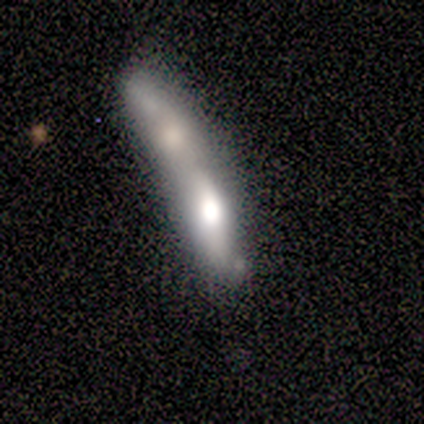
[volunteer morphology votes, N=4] Q: Smooth or featured?
A: smooth (75%); runner-up: featured or disk (25%)
Q: How rounded?
A: in between (67%); runner-up: cigar-shaped (33%)
Q: Merging?
A: merger (100%)